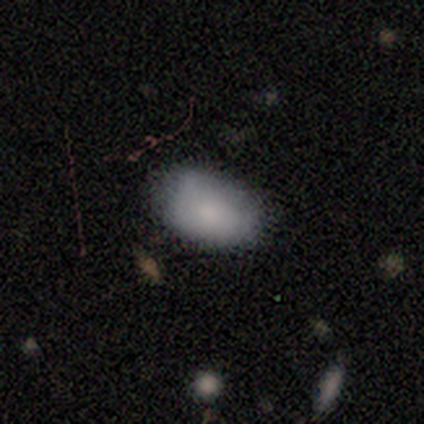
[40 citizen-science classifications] Smooth or featured? smooth (82%)
How rounded? in between (97%)
Merging? none (68%)